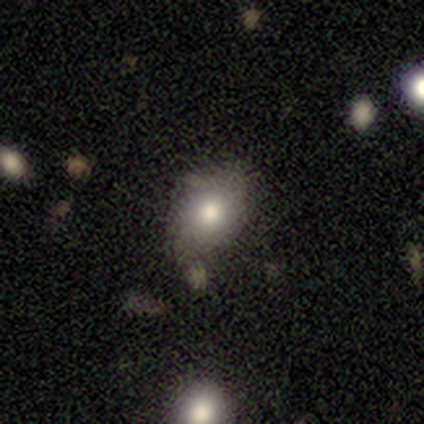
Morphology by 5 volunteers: A smooth galaxy with no disk features (100%) that is in between round and cigar-shaped (100%). Merging: none (100%).